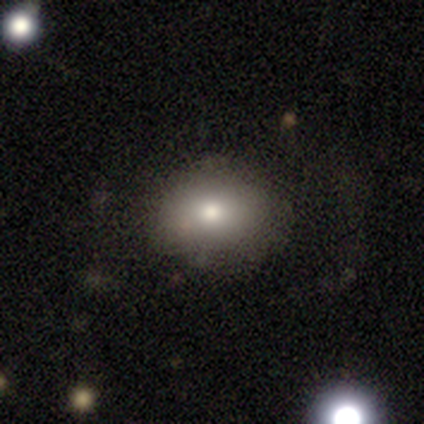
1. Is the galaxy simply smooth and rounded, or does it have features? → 80% smooth, 20% star or artifact, 0% featured or disk.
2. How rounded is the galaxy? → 75% in between, 25% round, 0% cigar-shaped.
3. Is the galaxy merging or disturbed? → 75% none, 25% minor disturbance, 0% major disturbance, 0% merger.